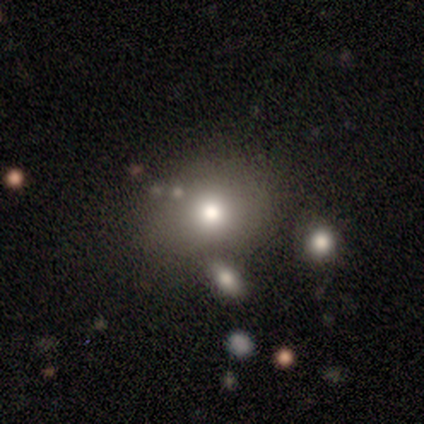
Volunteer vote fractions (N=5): Smooth or featured?
  - smooth: 100% *
  - featured or disk: 0%
  - star or artifact: 0%
How rounded?
  - round: 80% *
  - in between: 20%
  - cigar-shaped: 0%
Merging?
  - none: 60% *
  - minor disturbance: 40%
  - major disturbance: 0%
  - merger: 0%